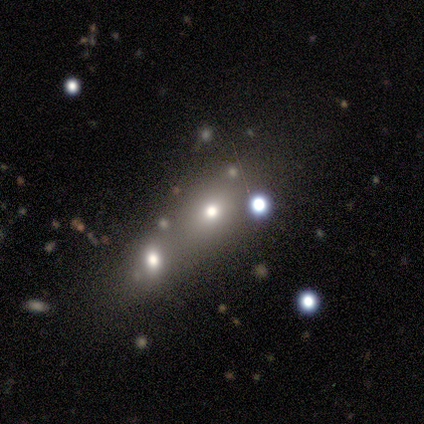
This appears to be a smooth galaxy with no disk features (60%) that is round (67%). Merging: merger (75%).